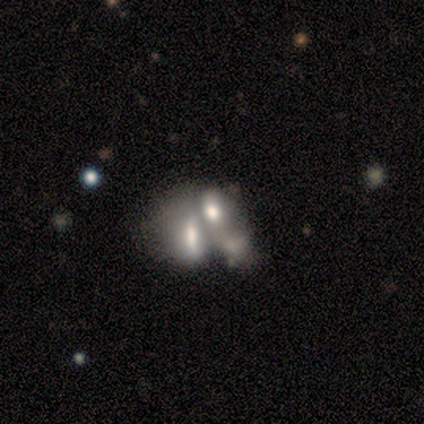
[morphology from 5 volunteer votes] Smooth or featured? 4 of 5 (80%) said featured or disk. Edge-on disk? 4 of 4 (100%) said no. Bar? 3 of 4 (75%) said no. Spiral arms? 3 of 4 (75%) said no. Bulge size? 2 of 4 (50%) said none. Merging? 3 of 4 (75%) said merger.